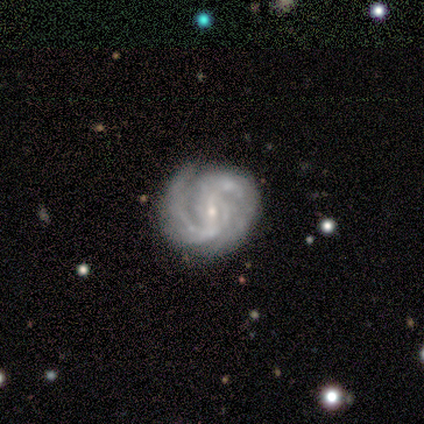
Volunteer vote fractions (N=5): smooth-or-featured: featured or disk: 100% | smooth: 0% | star or artifact: 0%
  disk-edge-on: no: 100% | yes: 0%
    bar: strong: 40% (tied) | weak: 40% (tied) | no: 20%
    has-spiral-arms: yes: 100% | no: 0%
      spiral-winding: medium: 60% | tight: 40% | loose: 0%
      spiral-arm-count: 2: 80% | 1: 20% | 3: 0% | 4: 0% | more than 4: 0% | can't tell: 0%
    bulge-size: small: 100% | dominant: 0% | large: 0% | moderate: 0% | none: 0%
  merging: minor disturbance: 60% | none: 40% | major disturbance: 0% | merger: 0%